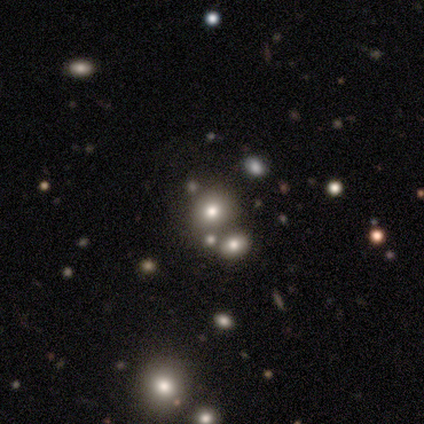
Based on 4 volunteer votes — This appears to be a star or artifact, not a galaxy (100%).